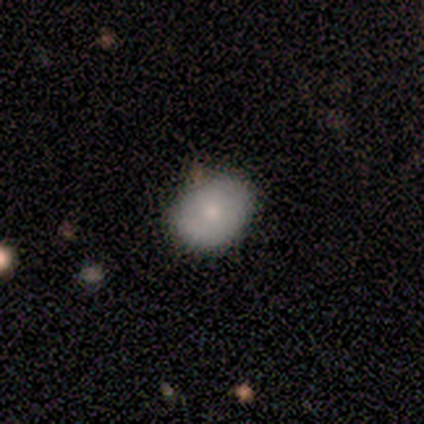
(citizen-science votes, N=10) Morphology: type=smooth (70%); roundness=in between (57%); merging=none (89%).